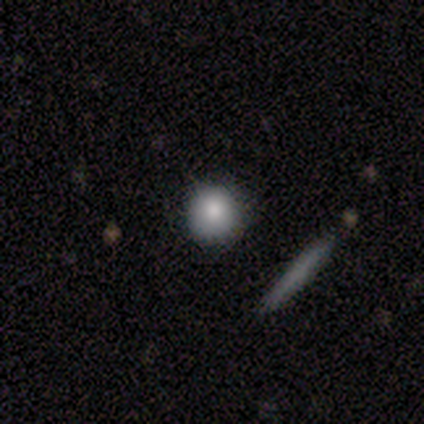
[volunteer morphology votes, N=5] smooth-or-featured: smooth: 80% | star or artifact: 20% | featured or disk: 0%
  how-rounded: round: 100% | in between: 0% | cigar-shaped: 0%
  merging: none: 50% | minor disturbance: 25% | merger: 25% | major disturbance: 0%